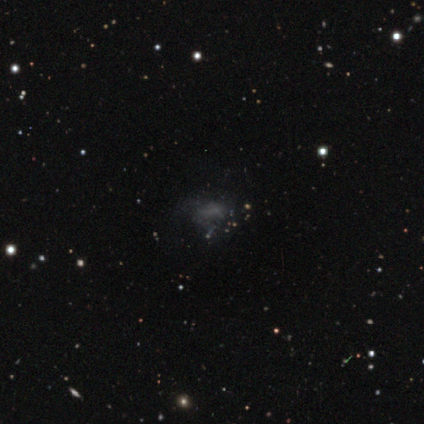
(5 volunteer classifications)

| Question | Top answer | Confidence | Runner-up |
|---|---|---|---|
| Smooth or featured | smooth | 60% | star or artifact (40%) |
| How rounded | in between | 100% | — |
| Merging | none | 33% | tied: minor disturbance (33%), major disturbance (33%) |